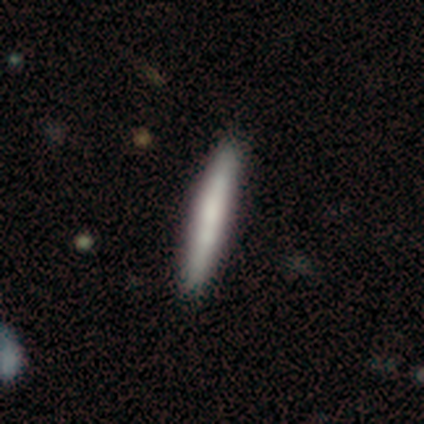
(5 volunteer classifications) Smooth or featured? smooth (60%)
How rounded? cigar-shaped (100%)
Merging? none (60%)